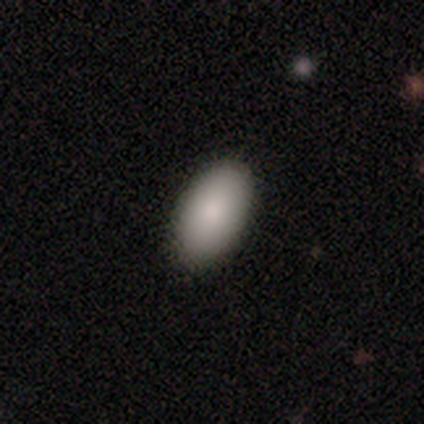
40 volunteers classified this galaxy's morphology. Smooth or featured? 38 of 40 (95%) said smooth. How rounded? 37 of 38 (97%) said in between. Merging? 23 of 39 (59%) said none.